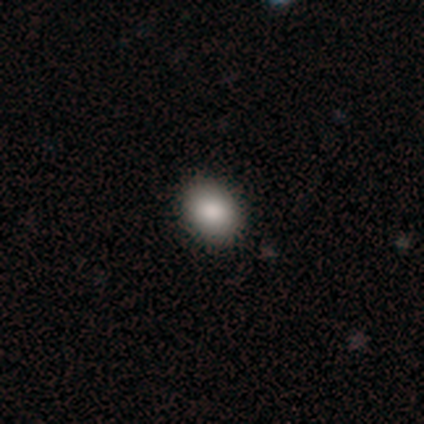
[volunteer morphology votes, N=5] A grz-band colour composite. It shows a smooth galaxy with no disk features (100%) that is in between round and cigar-shaped (80%). Merging: none (100%).